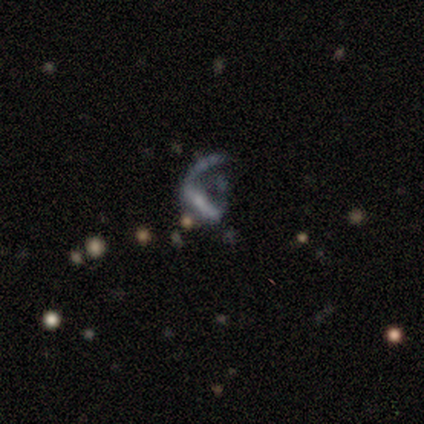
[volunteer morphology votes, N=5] type=featured or disk (80%); edge-on=no (100%); bar=strong (50%); spiral arms=yes (75%); winding=loose (100%); arm count=1 (67%); bulge=small (75%); merging=major disturbance (50%).